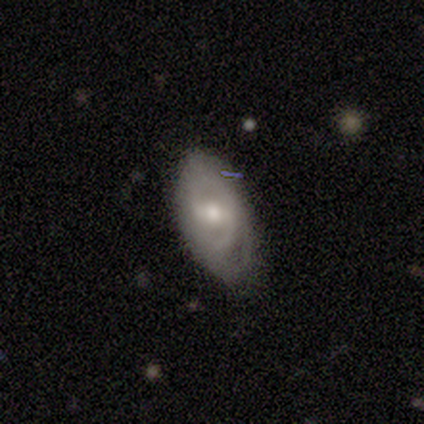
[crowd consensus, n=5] A featured or disk galaxy (80%) with a weak bar (100%), 2 (67%) loose (67%) spiral arms (75%) and a moderate central bulge (75%). Merging: none (80%).